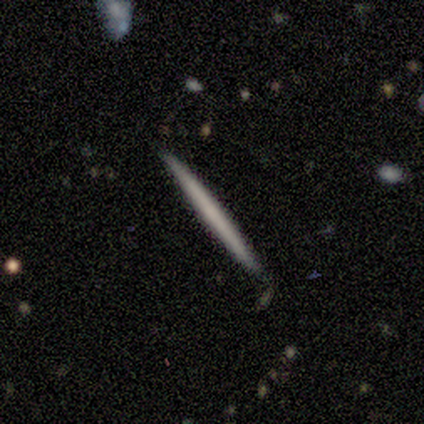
Q: Smooth or featured?
A: featured or disk (60%); runner-up: smooth (20%)
Q: Edge-on disk?
A: yes (100%)
Q: Edge-on bulge?
A: none (67%); runner-up: rounded (33%)
Q: Merging?
A: none (100%)